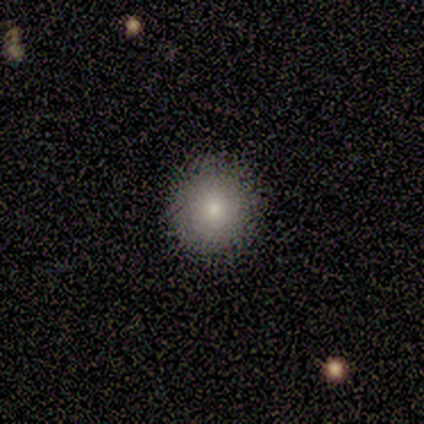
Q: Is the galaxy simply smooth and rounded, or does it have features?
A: smooth — 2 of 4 (50%).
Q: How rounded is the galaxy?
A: round — 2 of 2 (100%).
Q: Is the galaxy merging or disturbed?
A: none — 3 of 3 (100%).